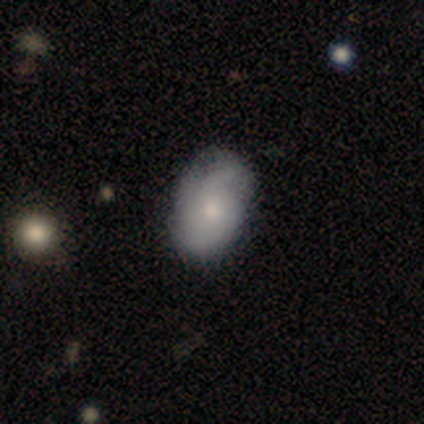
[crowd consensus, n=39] smooth-or-featured: smooth: 54% | featured or disk: 46% | star or artifact: 0%
  how-rounded: in between: 71% | round: 24% | cigar-shaped: 5%
  merging: none: 51% | minor disturbance: 18% | major disturbance: 3% | merger: 3%